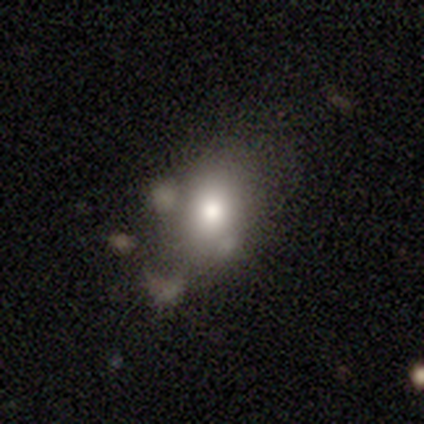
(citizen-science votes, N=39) Volunteers were most divided on "merging": none: 50%, minor disturbance: 31%, merger: 14%, major disturbance: 6%. More confident: smooth or featured — smooth (74%); how rounded — in between (66%).